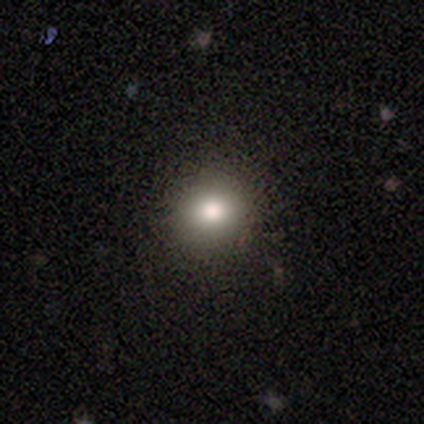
This is likely a smooth galaxy (70%). How rounded: clearly round (89%). Merging: clearly none (86%).